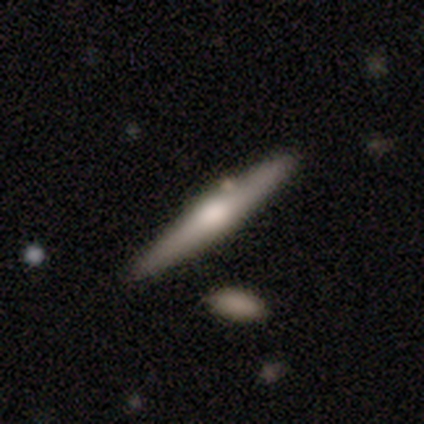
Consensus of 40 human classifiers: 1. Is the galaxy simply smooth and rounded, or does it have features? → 55% featured or disk, 45% smooth, 0% star or artifact.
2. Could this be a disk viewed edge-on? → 100% yes, 0% no.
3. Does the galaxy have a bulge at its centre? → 100% rounded, 0% boxy, 0% none.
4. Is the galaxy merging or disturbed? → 82% none, 8% merger, 5% minor disturbance, 5% major disturbance.